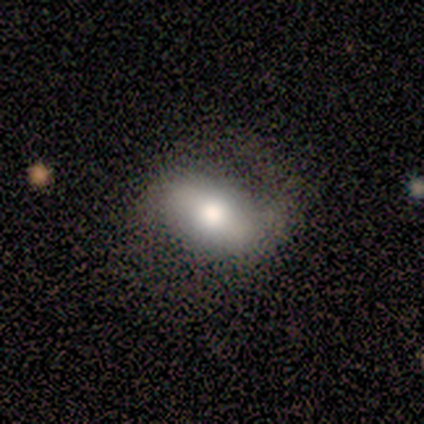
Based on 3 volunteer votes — Q: Smooth or featured?
A: smooth (67%); runner-up: featured or disk (33%)
Q: How rounded?
A: in between (100%)
Q: Merging?
A: none (33%); tied with: minor disturbance (33%); major disturbance (33%)